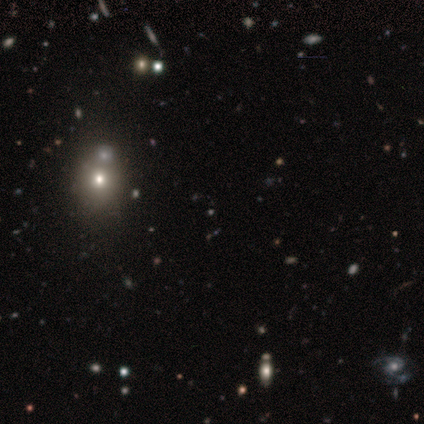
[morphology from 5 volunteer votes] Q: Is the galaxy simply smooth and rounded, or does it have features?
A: smooth — 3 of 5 (60%).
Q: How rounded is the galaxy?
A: round — 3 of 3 (100%).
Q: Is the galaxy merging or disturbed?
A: none — 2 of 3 (67%).